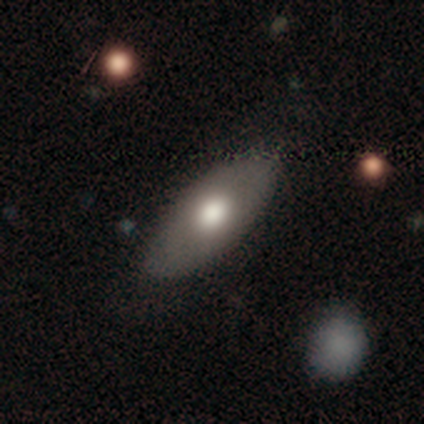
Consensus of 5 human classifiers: smooth_or_featured: smooth (p=0.60) [alt: featured or disk p=0.40]
how_rounded: in between (p=1.00)
merging: none (p=0.80) [alt: minor disturbance p=0.20]